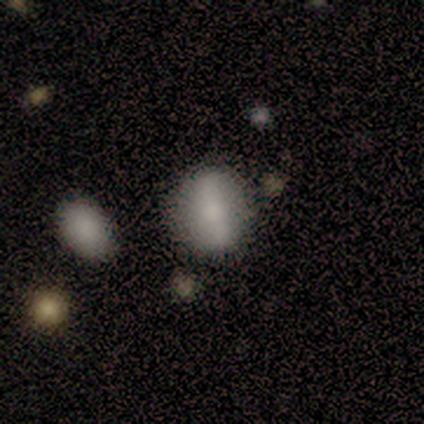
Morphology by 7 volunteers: type=smooth (100%); roundness=round (57%); merging=none (71%).